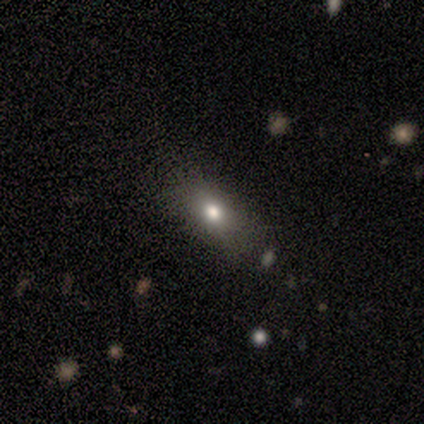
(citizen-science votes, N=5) This is likely a smooth galaxy (60%). How rounded: likely in between (67%). Merging: likely none (75%).